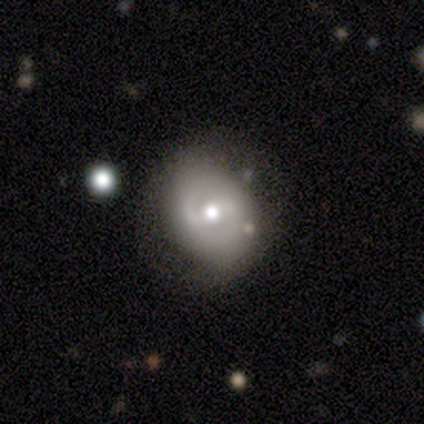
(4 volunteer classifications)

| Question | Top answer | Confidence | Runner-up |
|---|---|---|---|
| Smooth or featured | featured or disk | 75% | smooth (25%) |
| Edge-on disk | no | 67% | yes (33%) |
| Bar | no | 100% | — |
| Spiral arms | yes | 100% | — |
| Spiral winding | tight | 100% | — |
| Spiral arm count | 2 | 100% | — |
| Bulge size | moderate | 50% | tied: small (50%) |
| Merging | none | 50% | minor disturbance (25%) |